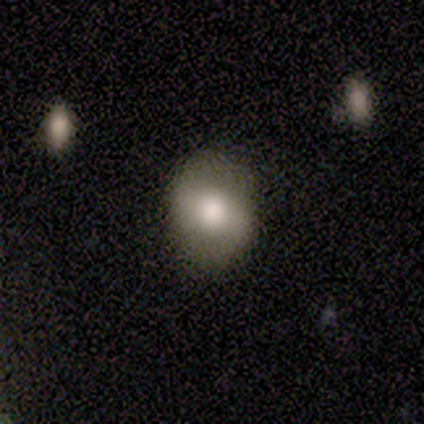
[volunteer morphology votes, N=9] This appears to be a smooth galaxy with no disk features (56%) that is in between round and cigar-shaped (60%). Merging: none (75%).